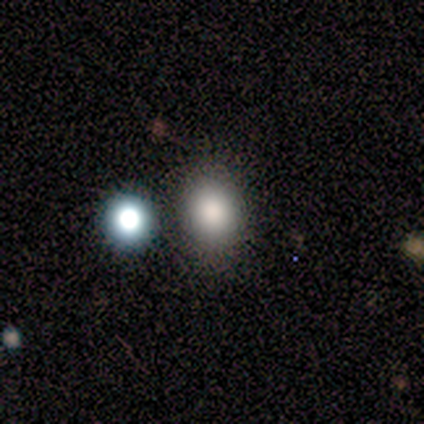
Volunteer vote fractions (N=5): This appears to be a smooth galaxy with no disk features (100%) that is round (80%). Merging: none (100%).